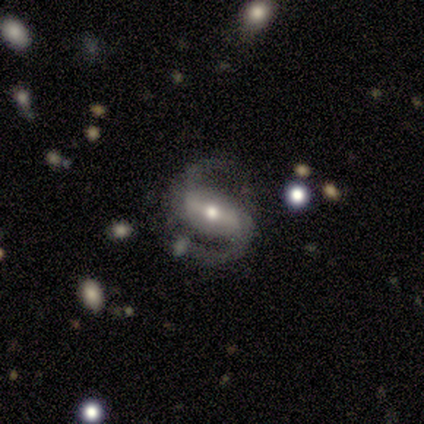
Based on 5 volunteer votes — Q: Smooth or featured?
A: featured or disk (80%); runner-up: smooth (20%)
Q: Edge-on disk?
A: no (100%)
Q: Bar?
A: strong (75%); runner-up: weak (25%)
Q: Spiral arms?
A: yes (100%)
Q: Spiral winding?
A: medium (100%)
Q: Spiral arm count?
A: 2 (100%)
Q: Bulge size?
A: moderate (50%); tied with: small (50%)
Q: Merging?
A: none (60%); runner-up: minor disturbance (20%)